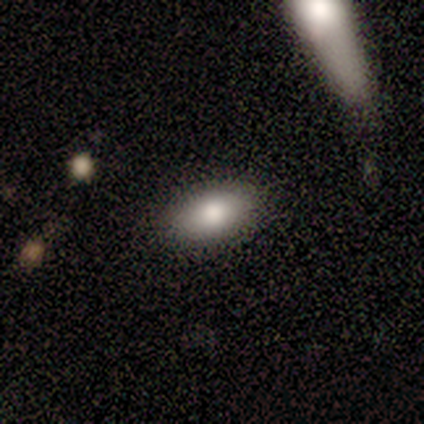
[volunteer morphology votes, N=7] Smooth or featured? 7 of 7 (100%) said smooth. How rounded? 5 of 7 (71%) said in between. Merging? 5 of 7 (71%) said none.